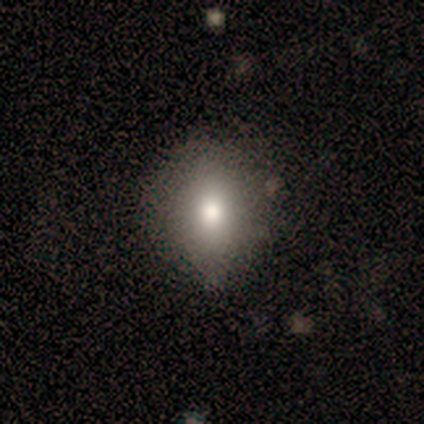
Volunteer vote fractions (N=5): Smooth or featured?
  - smooth: 60% *
  - featured or disk: 20%
  - star or artifact: 20%
How rounded?
  - in between: 67% *
  - round: 33%
  - cigar-shaped: 0%
Merging?
  - none: 75% *
  - minor disturbance: 25%
  - major disturbance: 0%
  - merger: 0%